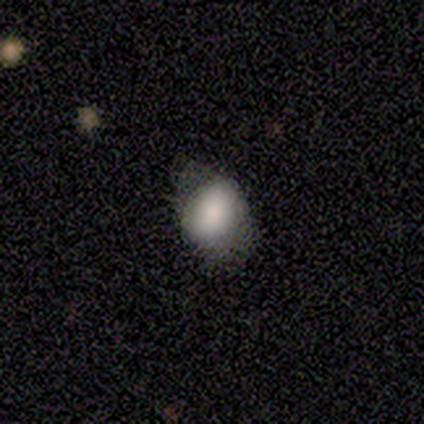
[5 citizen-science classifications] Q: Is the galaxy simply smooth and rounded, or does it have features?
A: smooth — 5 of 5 (100%).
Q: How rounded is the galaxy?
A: in between — 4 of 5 (80%).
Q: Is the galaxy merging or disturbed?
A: none — 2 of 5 (40%, tied with minor disturbance).